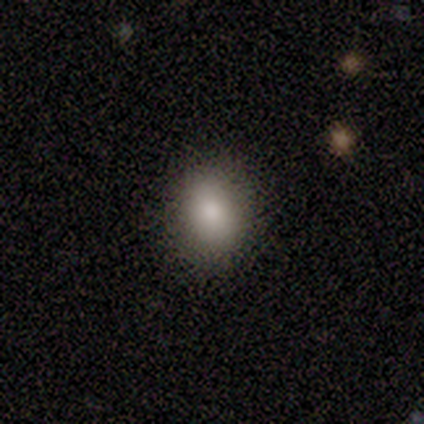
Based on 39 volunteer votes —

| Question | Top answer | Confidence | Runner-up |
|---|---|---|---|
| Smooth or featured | smooth | 82% | featured or disk (10%) |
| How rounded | round | 50% | in between (47%) |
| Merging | none | 86% | minor disturbance (8%) |